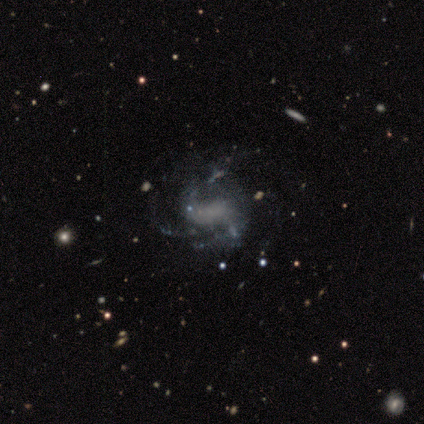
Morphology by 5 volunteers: featured or disk 100%, smooth 0%, star or artifact 0%. Down the decision tree: edge-on disk — no (100%); bar — weak (60%); spiral arms — yes (80%); spiral arm count — 2 (50%, tied with 4); spiral winding — loose (100%); bulge size — none (60%); merging — none (60%).